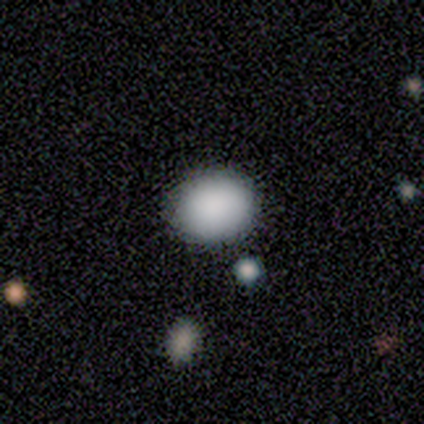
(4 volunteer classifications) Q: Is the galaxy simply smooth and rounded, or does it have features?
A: smooth — 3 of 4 (75%).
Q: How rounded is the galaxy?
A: round — 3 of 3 (100%).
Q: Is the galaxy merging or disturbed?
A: none — 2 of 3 (67%).